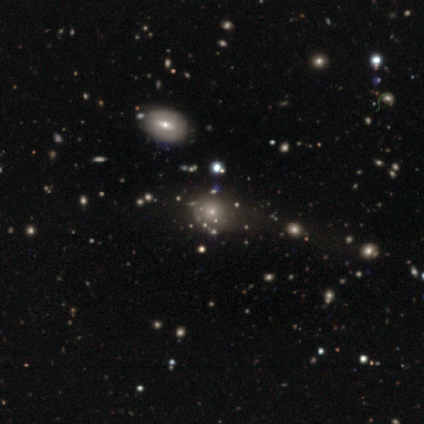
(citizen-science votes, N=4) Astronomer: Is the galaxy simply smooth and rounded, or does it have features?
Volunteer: featured or disk — 50%.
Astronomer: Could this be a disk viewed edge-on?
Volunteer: no — 100%.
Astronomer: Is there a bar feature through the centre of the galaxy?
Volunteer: weak — 50%, tied with no at 50%.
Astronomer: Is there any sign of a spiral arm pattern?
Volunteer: no — 100%.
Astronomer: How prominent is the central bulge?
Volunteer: small — 100%.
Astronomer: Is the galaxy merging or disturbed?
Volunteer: none — 100%.